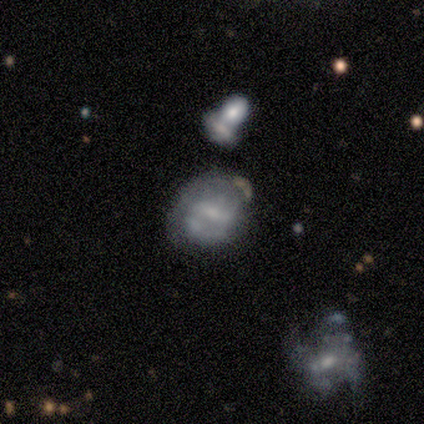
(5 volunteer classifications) Morphology: type=featured or disk (60%); edge-on=no (100%); bar=weak (67%); spiral arms=no (67%); bulge=moderate (100%); merging=none (50%, tied with minor disturbance).